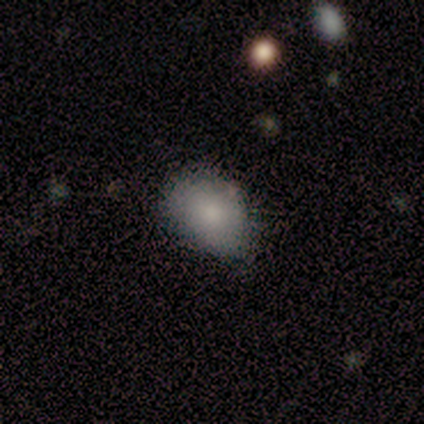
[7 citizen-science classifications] This is clearly a smooth galaxy (100%). How rounded: clearly in between (86%). Merging: marginally none (29%, tied with minor disturbance and merger).